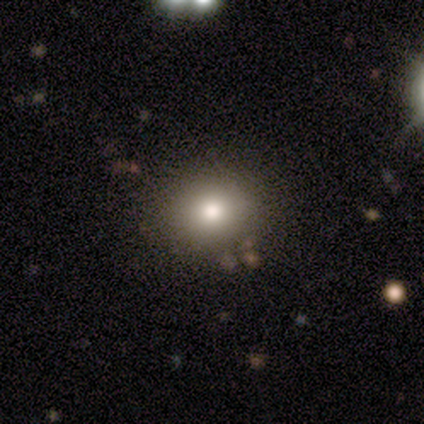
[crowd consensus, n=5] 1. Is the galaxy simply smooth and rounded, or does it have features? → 80% smooth, 20% star or artifact, 0% featured or disk.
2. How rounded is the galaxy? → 50% round (tied), 50% in between (tied), 0% cigar-shaped.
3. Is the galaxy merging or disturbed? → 75% none, 25% minor disturbance, 0% major disturbance, 0% merger.